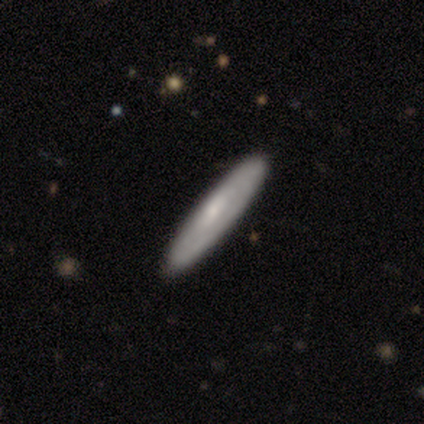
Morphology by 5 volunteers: smooth-or-featured: featured or disk: 80% | smooth: 20% | star or artifact: 0%
  disk-edge-on: yes: 100% | no: 0%
    edge-on-bulge: none: 50% | boxy: 25% | rounded: 25%
  merging: none: 80% | major disturbance: 20% | minor disturbance: 0% | merger: 0%